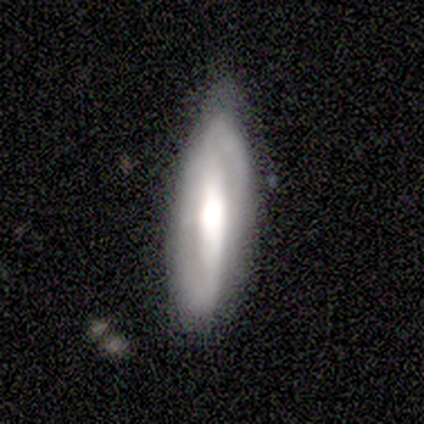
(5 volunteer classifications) This is marginally a smooth galaxy (40%, tied with featured or disk). How rounded: clearly in between (100%). Merging: likely none (75%).